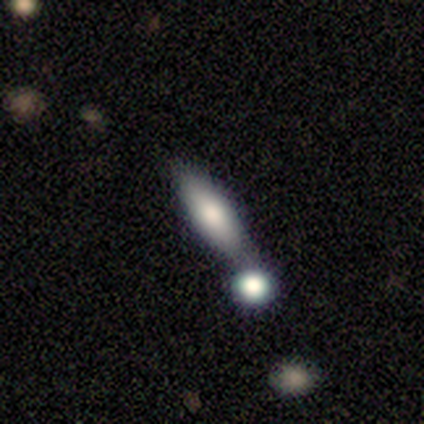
smooth-or-featured: smooth: 60% | featured or disk: 20% | star or artifact: 20%
  how-rounded: cigar-shaped: 67% | in between: 33% | round: 0%
  merging: minor disturbance: 50% | none: 25% | merger: 25% | major disturbance: 0%